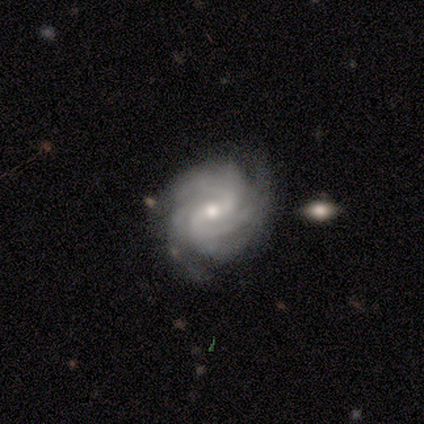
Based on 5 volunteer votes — This appears to be a featured or disk galaxy (100%) with a weak bar (80%), 3 (60%) tight (60%) spiral arms (100%) and a small central bulge (80%). Merging: none (80%).